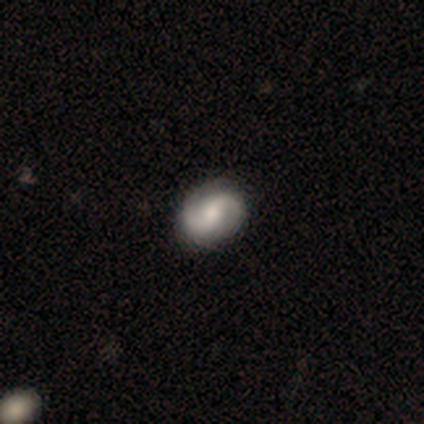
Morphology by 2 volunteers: A featured or disk galaxy (100%) viewed edge-on (50%, tied with no) with a rounded central bulge (100%). Merging: none (100%).